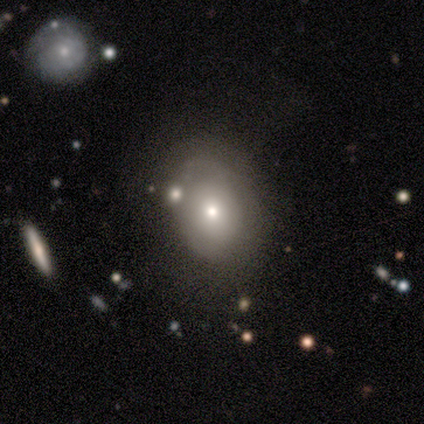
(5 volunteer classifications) smooth_or_featured: smooth (p=0.60) [alt: featured or disk p=0.40]
how_rounded: round (p=0.67) [alt: in between p=0.33]
merging: none (p=0.60) [alt: minor disturbance p=0.40]